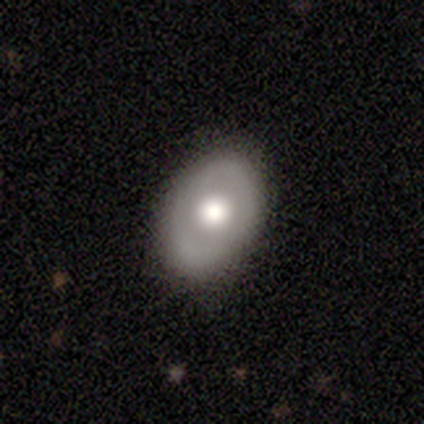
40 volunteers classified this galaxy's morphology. Smooth or featured? smooth (60%)
How rounded? in between (79%)
Merging? none (75%)